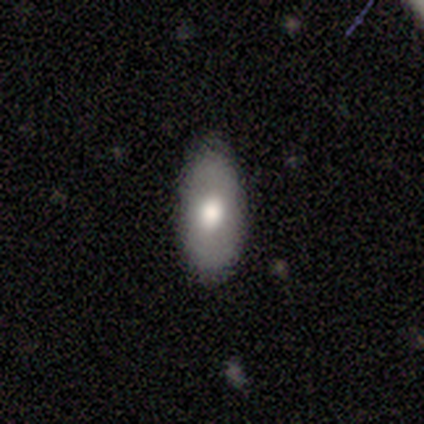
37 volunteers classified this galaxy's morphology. Smooth or featured: smooth — 62% (featured or disk — 27%)
How rounded: in between — 91% (round — 4%)
Merging: none — 91% (minor disturbance — 6%)